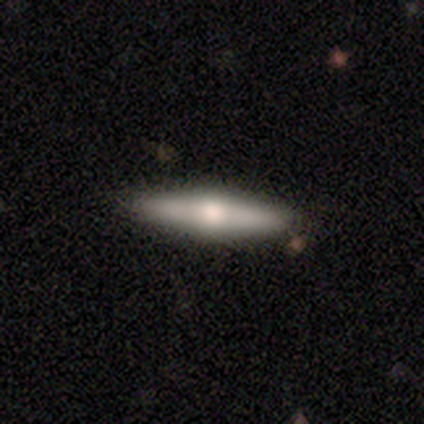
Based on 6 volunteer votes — Overall: featured or disk (67%). Edge-on disk: yes (100%). Edge-on bulge: rounded (100%). Merging: none (100%).